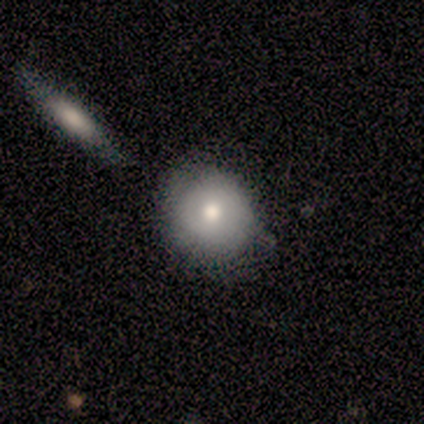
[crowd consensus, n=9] Smooth or featured? smooth (67%)
How rounded? round (100%)
Merging? none (75%)